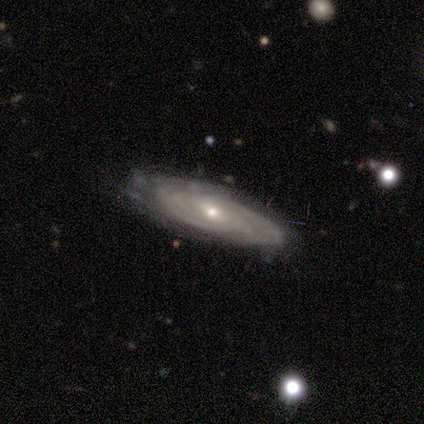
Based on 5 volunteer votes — Smooth or featured?
  - featured or disk: 80% *
  - star or artifact: 20%
  - smooth: 0%
Edge-on disk?
  - no: 100% *
  - yes: 0%
Bar?
  - weak: 100% *
  - strong: 0%
  - no: 0%
Spiral arms?
  - yes: 100% *
  - no: 0%
Spiral winding?
  - tight: 100% *
  - medium: 0%
  - loose: 0%
Spiral arm count?
  - 2: 25% * (tied)
  - 3: 25% * (tied)
  - more than 4: 25% * (tied)
  - can't tell: 25% * (tied)
  - 1: 0%
  - 4: 0%
Bulge size?
  - small: 75% *
  - moderate: 25%
  - dominant: 0%
  - large: 0%
  - none: 0%
Merging?
  - none: 50% * (tied)
  - minor disturbance: 50% * (tied)
  - major disturbance: 0%
  - merger: 0%